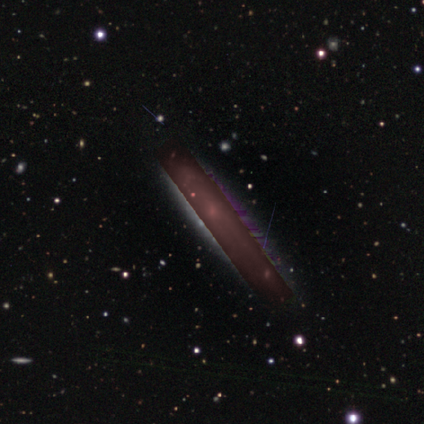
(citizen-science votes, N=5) star or artifact 80%, featured or disk 20%, smooth 0%.